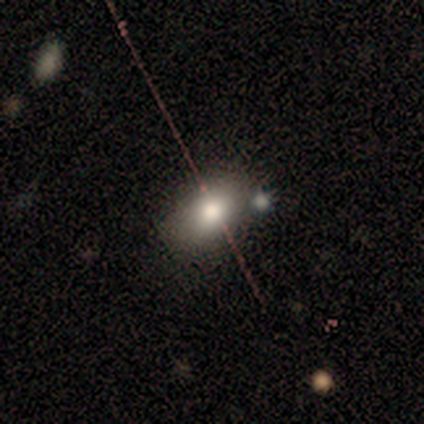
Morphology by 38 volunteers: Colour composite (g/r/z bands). It shows a smooth galaxy with no disk features (76%) that is in between round and cigar-shaped (83%). Merging: none (74%).